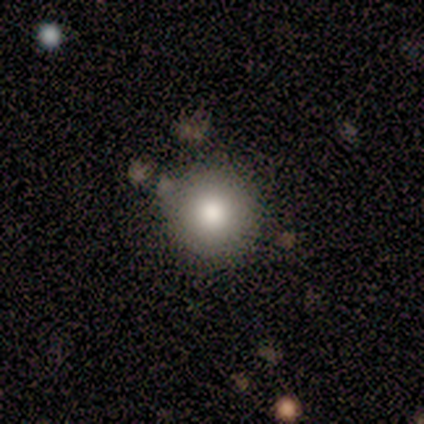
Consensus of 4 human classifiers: Morphology: type=smooth (75%); roundness=round (100%); merging=none (67%).